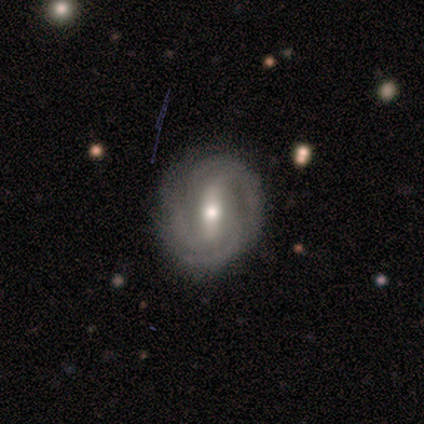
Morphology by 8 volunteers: Smooth or featured?
  - featured or disk: 88% *
  - star or artifact: 12%
  - smooth: 0%
Edge-on disk?
  - no: 100% *
  - yes: 0%
Bar?
  - strong: 71% *
  - weak: 29%
  - no: 0%
Spiral arms?
  - yes: 100% *
  - no: 0%
Spiral winding?
  - tight: 100% *
  - medium: 0%
  - loose: 0%
Spiral arm count?
  - 3: 57% *
  - 2: 14%
  - 4: 14%
  - can't tell: 14%
  - 1: 0%
  - more than 4: 0%
Bulge size?
  - moderate: 43% * (tied)
  - small: 43% * (tied)
  - dominant: 14%
  - large: 0%
  - none: 0%
Merging?
  - none: 86% *
  - minor disturbance: 14%
  - major disturbance: 0%
  - merger: 0%